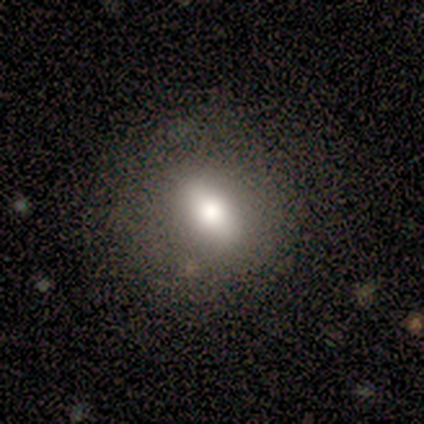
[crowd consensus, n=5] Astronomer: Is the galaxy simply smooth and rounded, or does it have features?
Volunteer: featured or disk — 40%, tied with star or artifact at 40%.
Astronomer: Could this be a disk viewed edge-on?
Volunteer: no — 100%.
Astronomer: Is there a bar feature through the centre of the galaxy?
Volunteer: strong — 50%, tied with weak at 50%.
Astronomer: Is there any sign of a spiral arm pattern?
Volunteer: no — 100%.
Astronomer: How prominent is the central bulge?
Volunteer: moderate — 50%, tied with small at 50%.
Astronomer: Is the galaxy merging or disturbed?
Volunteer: none — 100%.